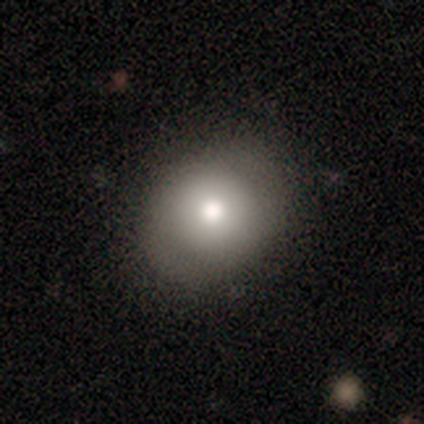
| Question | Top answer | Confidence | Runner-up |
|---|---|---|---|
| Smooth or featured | smooth | 80% | featured or disk (20%) |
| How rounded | in between | 75% | round (25%) |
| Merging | none | 100% | — |